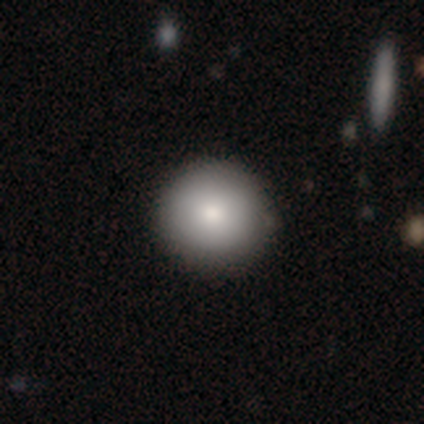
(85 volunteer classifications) Smooth or featured? 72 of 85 (85%) said smooth. How rounded? 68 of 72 (94%) said round. Merging? 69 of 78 (88%) said none.